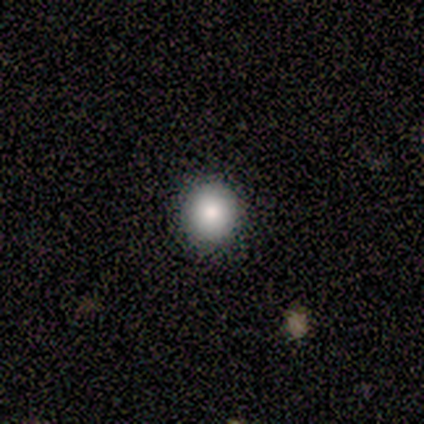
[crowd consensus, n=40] smooth-or-featured: smooth: 80% | featured or disk: 10% | star or artifact: 10%
  how-rounded: round: 84% | in between: 12% | cigar-shaped: 3%
  merging: none: 92% | minor disturbance: 8% | major disturbance: 0% | merger: 0%